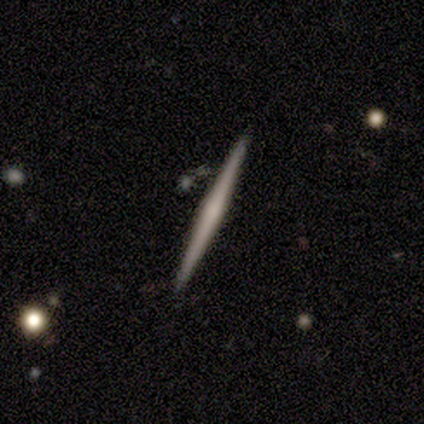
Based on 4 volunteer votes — Smooth or featured: smooth — 75% (featured or disk — 25%)
How rounded: cigar-shaped — 100%
Merging: none — 100%